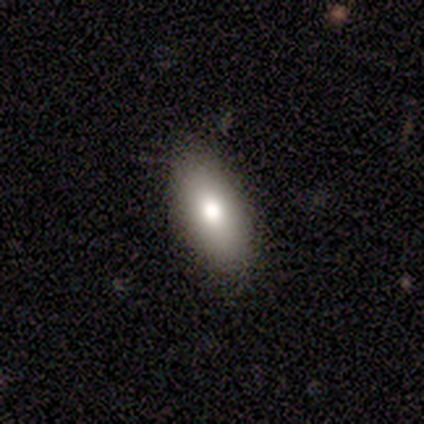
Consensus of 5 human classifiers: This appears to be a smooth galaxy with no disk features (80%) that is in between round and cigar-shaped (100%). Merging: none (80%).